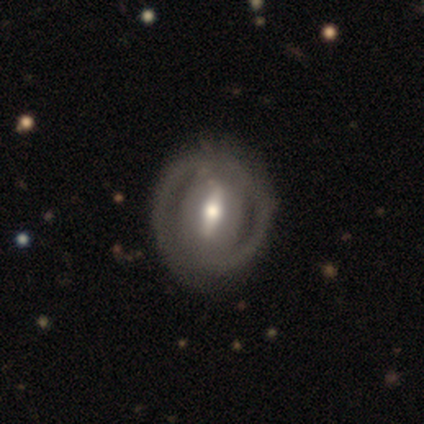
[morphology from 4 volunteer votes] A featured or disk galaxy (50%) with a strong bar (50%, tied with weak), 2 (100%) tight (50%, tied with medium) spiral arms (100%) and a large central bulge (50%, tied with moderate).

Vote fractions:
- Smooth or featured? featured or disk: 50% / smooth: 25% / star or artifact: 25%
- Edge-on disk? no: 100% / yes: 0%
- Bar? strong: 50% (tied) / weak: 50% (tied) / no: 0%
- Spiral arms? yes: 100% / no: 0%
- Spiral winding? tight: 50% (tied) / medium: 50% (tied) / loose: 0%
- Spiral arm count? 2: 100% / 1: 0% / 3: 0% / 4: 0% / more than 4: 0% / can't tell: 0%
- Bulge size? large: 50% (tied) / moderate: 50% (tied) / dominant: 0% / small: 0% / none: 0%
- Merging? none: 67% / minor disturbance: 33% / major disturbance: 0% / merger: 0%